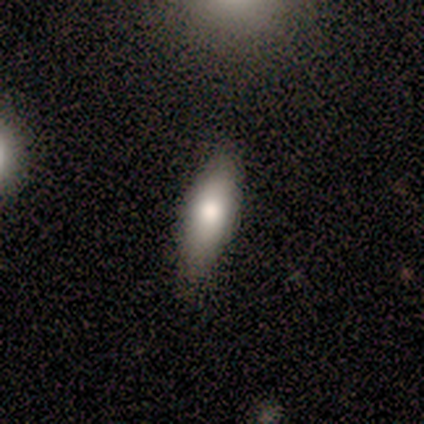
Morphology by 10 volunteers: type=smooth (80%); roundness=in between (62%); merging=none (89%).